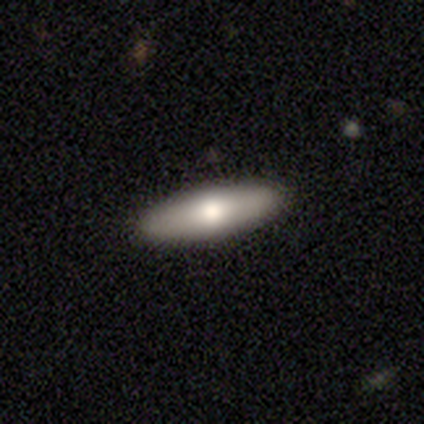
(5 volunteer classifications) Volunteers were most divided on "how rounded": in between: 75%, cigar-shaped: 25%, round: 0%. More confident: merging — none (100%); smooth or featured — smooth (80%).